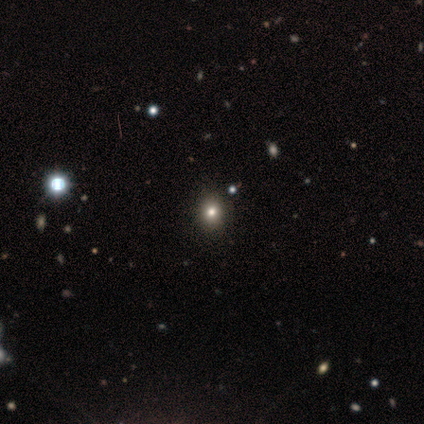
smooth 67%, star or artifact 33%, featured or disk 0%. Down the decision tree: how rounded — round (75%); merging — none (75%).